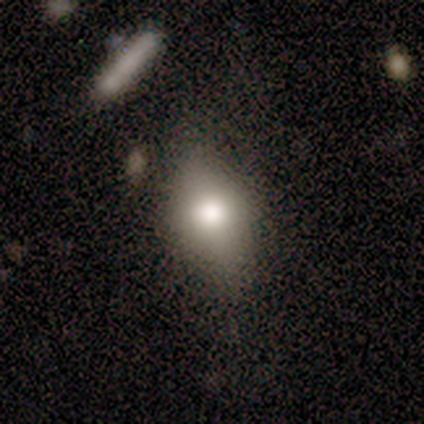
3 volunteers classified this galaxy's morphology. type=featured or disk (67%); edge-on=yes (100%); edge-on bulge=rounded (100%); merging=none (67%).